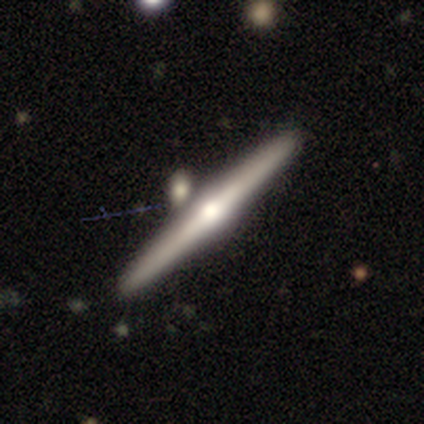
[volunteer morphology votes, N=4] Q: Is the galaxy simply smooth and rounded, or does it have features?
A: featured or disk — 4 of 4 (100%).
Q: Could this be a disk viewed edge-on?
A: yes — 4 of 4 (100%).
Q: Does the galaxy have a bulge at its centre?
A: rounded — 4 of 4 (100%).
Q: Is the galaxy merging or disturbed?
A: none — 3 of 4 (75%).